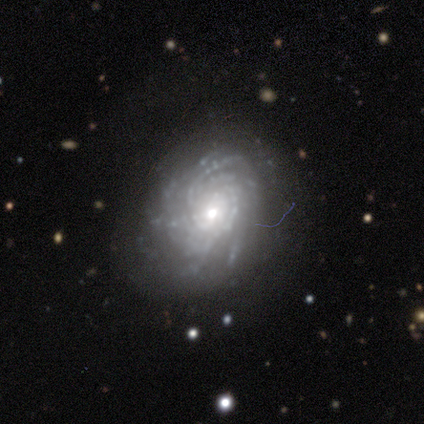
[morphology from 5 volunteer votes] type=featured or disk (100%); edge-on=no (100%); bar=no (80%); spiral arms=yes (100%); winding=tight (80%); arm count=can't tell (60%); bulge=small (80%); merging=none (60%).